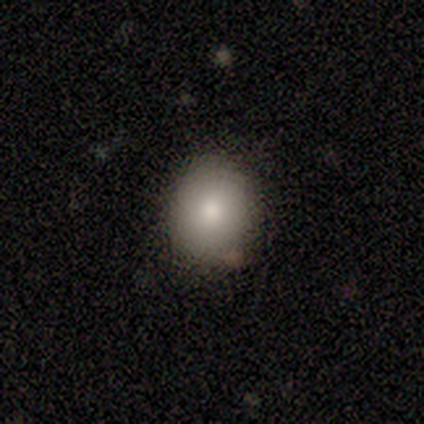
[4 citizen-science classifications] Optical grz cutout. It shows a smooth galaxy with no disk features (50%, tied with star or artifact) that is round (100%). Merging: none (100%).